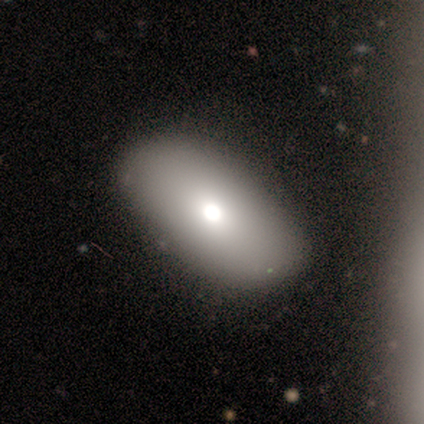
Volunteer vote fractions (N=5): Morphology: type=smooth (80%); roundness=in between (75%); merging=none (50%, tied with minor disturbance).